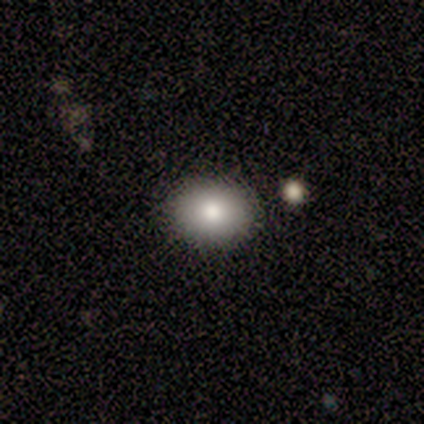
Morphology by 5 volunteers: This appears to be a smooth galaxy with no disk features (80%) that is in between round and cigar-shaped (75%). Merging: none (75%).